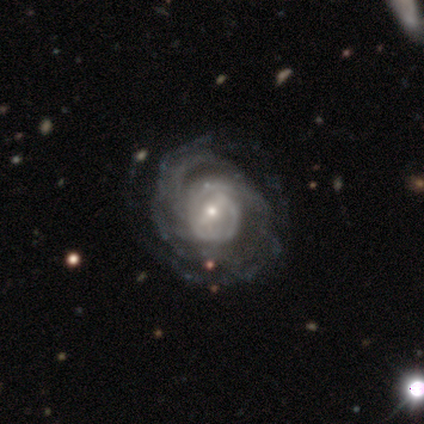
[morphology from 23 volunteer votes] Smooth or featured: featured or disk — 87% (smooth — 9%)
Edge-on disk: no — 100%
Bar: weak — 50% (strong — 25%)
Spiral arms: yes — 95% (no — 5%)
Spiral winding: tight — 63% (medium — 26%)
Spiral arm count: 2 — 42% (can't tell — 37%)
Bulge size: moderate — 45% (tied with small — 45%)
Merging: none — 82% (minor disturbance — 9%)